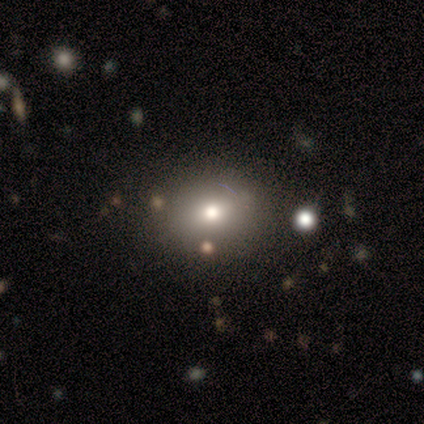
Overall: smooth (50%; star or artifact 40%). How rounded: in between (60%; round 40%). Merging: none (100%).